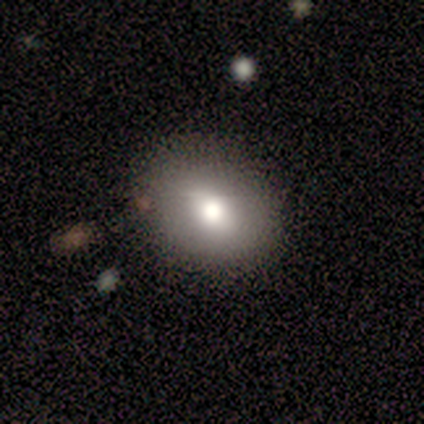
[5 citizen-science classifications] Smooth or featured: smooth — 80% (star or artifact — 20%)
How rounded: in between — 75% (round — 25%)
Merging: none — 75% (minor disturbance — 25%)